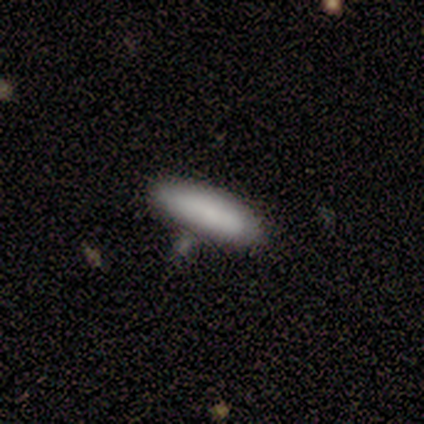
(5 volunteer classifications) A smooth galaxy with no disk features (80%) that is cigar-shaped (100%). Merging: none (100%).